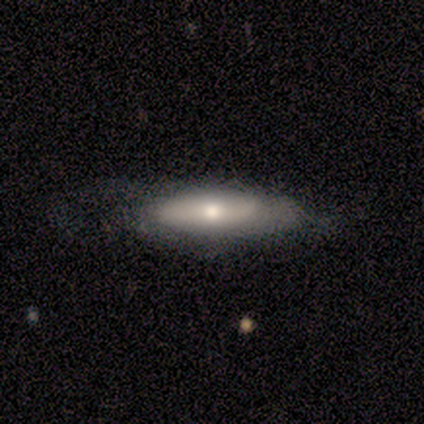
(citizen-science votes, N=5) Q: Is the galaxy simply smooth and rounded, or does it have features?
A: featured or disk — 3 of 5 (60%).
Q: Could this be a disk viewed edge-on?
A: no — 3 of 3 (100%).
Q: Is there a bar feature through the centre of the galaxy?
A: no — 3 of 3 (100%).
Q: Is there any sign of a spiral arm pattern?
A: yes — 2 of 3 (67%).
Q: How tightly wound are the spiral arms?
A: medium — 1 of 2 (50%, tied with loose).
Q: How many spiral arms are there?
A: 1 — 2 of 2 (100%).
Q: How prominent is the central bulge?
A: moderate — 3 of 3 (100%).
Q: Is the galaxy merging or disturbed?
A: none — 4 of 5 (80%).